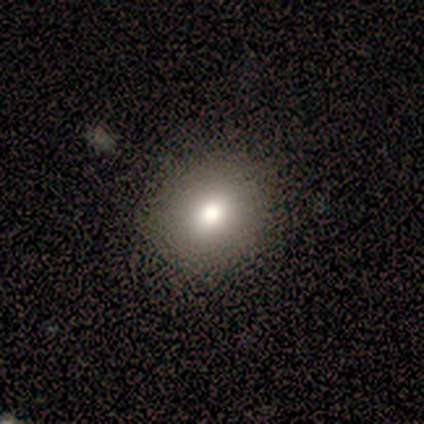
smooth_or_featured: smooth (p=0.60) [alt: featured or disk p=0.40]
how_rounded: round (p=0.67) [alt: in between p=0.33]
merging: none (p=1.00)